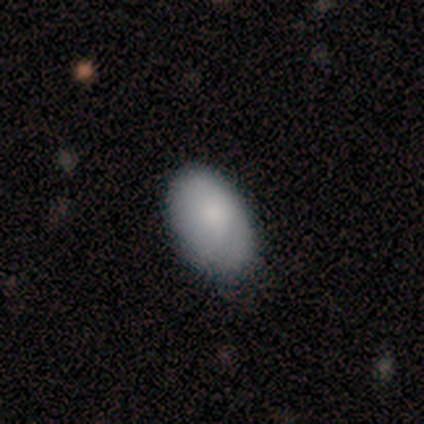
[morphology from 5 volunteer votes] Q: Smooth or featured?
A: smooth (100%)
Q: How rounded?
A: in between (60%); runner-up: round (20%)
Q: Merging?
A: none (40%); tied with: minor disturbance (40%)